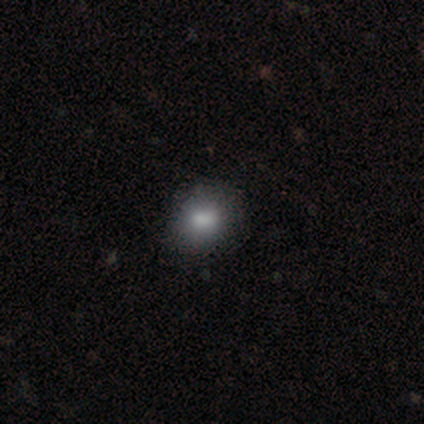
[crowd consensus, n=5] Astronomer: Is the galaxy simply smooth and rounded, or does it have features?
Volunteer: smooth — 80%.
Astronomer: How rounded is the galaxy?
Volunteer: round — 75%.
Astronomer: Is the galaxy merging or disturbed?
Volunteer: none — 100%.